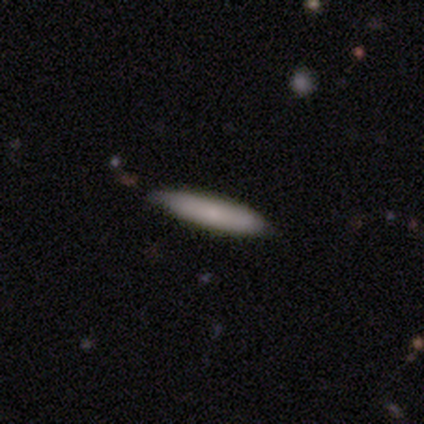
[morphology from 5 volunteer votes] type=smooth (100%); roundness=cigar-shaped (100%); merging=none (80%).